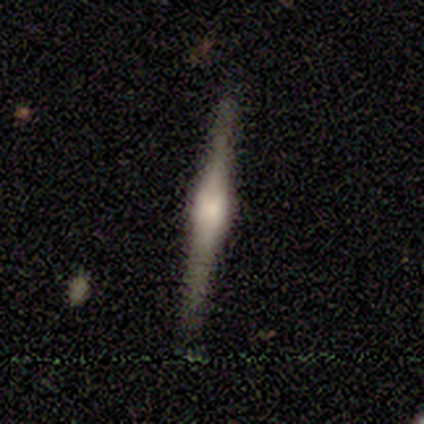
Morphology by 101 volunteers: Smooth or featured? 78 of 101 (77%) said featured or disk. Edge-on disk? 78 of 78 (100%) said yes. Edge-on bulge? 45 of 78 (58%) said rounded. Merging? 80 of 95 (84%) said none.